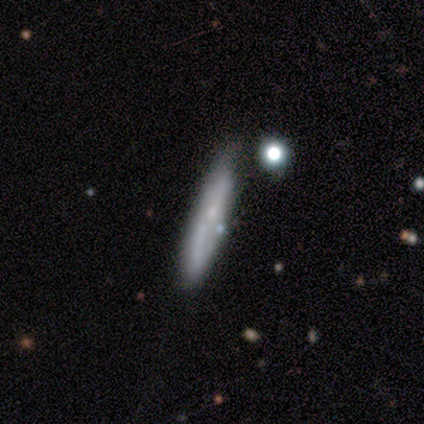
Overall: smooth (56%; featured or disk 41%). How rounded: cigar-shaped (95%). Merging: none (63%; minor disturbance 24%).